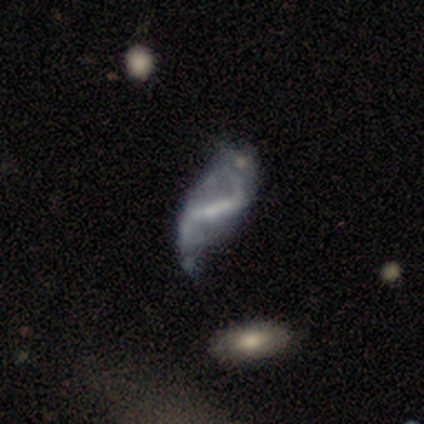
Overall: featured or disk (80%). Edge-on disk: no (100%). Bar: strong (62%; weak 38%). Spiral arms: yes (88%). Spiral arm count: 2 (71%). Spiral winding: loose (100%). Bulge size: small (62%). Merging: none (40%; minor disturbance 30%).